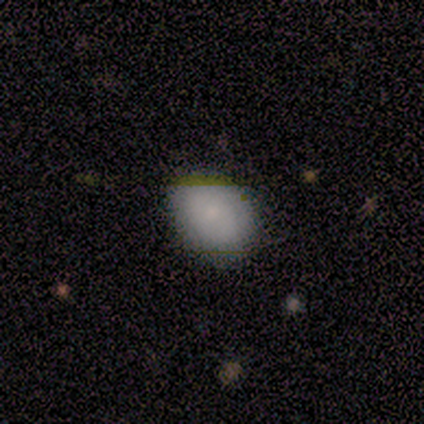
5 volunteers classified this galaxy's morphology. Overall: smooth (80%). How rounded: in between (75%). Merging: none (100%).